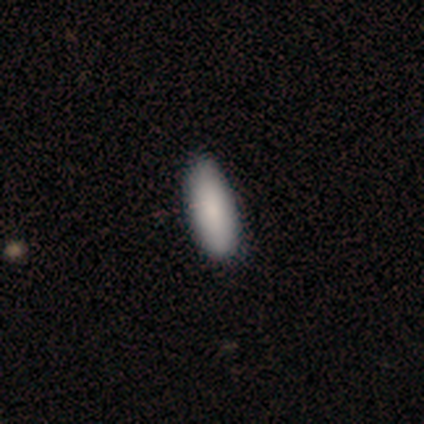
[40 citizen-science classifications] This is clearly a smooth galaxy (95%). How rounded: likely in between (63%). Merging: clearly none (87%).